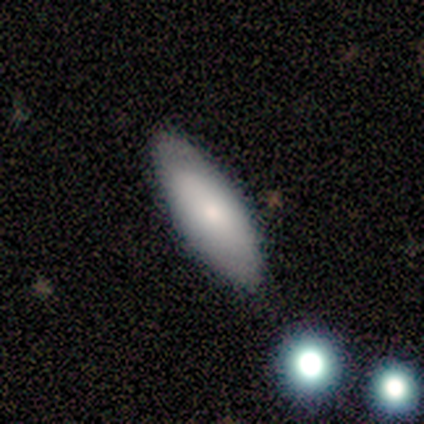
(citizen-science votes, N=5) Smooth or featured?
  - smooth: 60% *
  - featured or disk: 40%
  - star or artifact: 0%
How rounded?
  - in between: 67% *
  - cigar-shaped: 33%
  - round: 0%
Merging?
  - none: 80% *
  - major disturbance: 20%
  - minor disturbance: 0%
  - merger: 0%